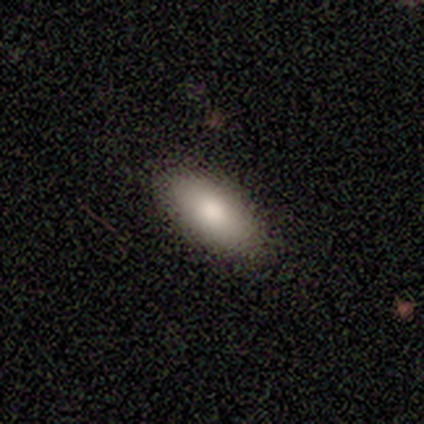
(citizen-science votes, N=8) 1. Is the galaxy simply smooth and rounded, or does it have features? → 88% smooth, 12% featured or disk, 0% star or artifact.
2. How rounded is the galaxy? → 86% in between, 14% cigar-shaped, 0% round.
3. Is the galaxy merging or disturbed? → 75% none, 12% minor disturbance, 12% merger, 0% major disturbance.